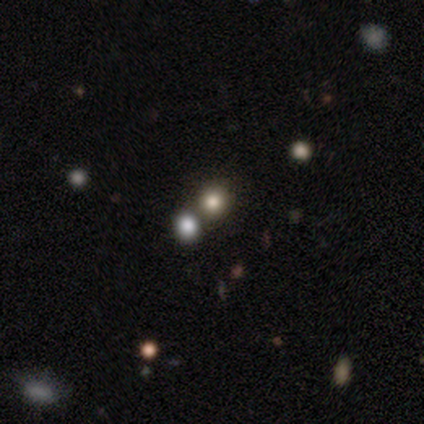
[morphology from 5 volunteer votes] Smooth or featured: smooth — 80% (star or artifact — 20%)
How rounded: round — 100%
Merging: none — 100%